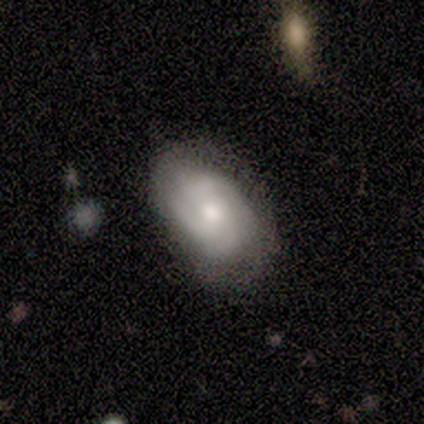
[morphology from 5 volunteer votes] This appears to be a featured or disk galaxy (60%) with no bar (100%), tight (67%) spiral arms (100%) and a moderate central bulge (100%). Merging: none (75%).